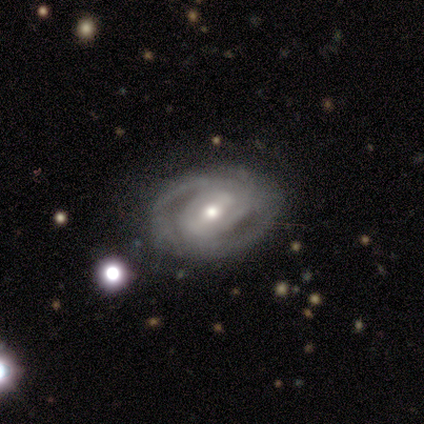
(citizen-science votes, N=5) Q: Smooth or featured?
A: featured or disk (80%); runner-up: smooth (20%)
Q: Edge-on disk?
A: no (100%)
Q: Bar?
A: strong (50%); tied with: weak (50%)
Q: Spiral arms?
A: yes (100%)
Q: Spiral winding?
A: tight (50%); runner-up: medium (25%)
Q: Spiral arm count?
A: 2 (50%); tied with: can't tell (50%)
Q: Bulge size?
A: moderate (50%); tied with: small (50%)
Q: Merging?
A: none (80%); runner-up: minor disturbance (20%)